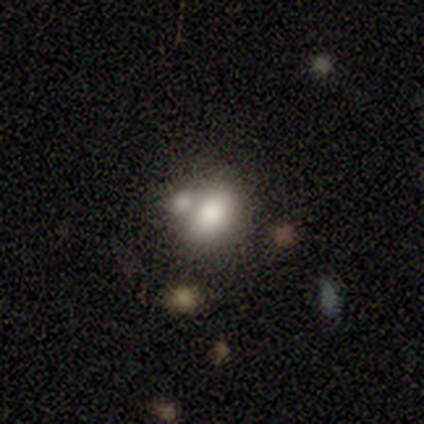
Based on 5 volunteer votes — Volunteers were most divided on "merging": merger: 40%, none: 20%, minor disturbance: 20%, major disturbance: 20%. More confident: how rounded — in between (100%); smooth or featured — smooth (80%).